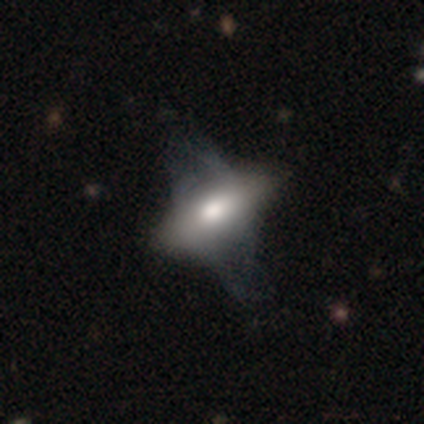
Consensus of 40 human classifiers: A smooth galaxy with no disk features (57%) that is in between round and cigar-shaped (91%). Merging: major disturbance (24%).